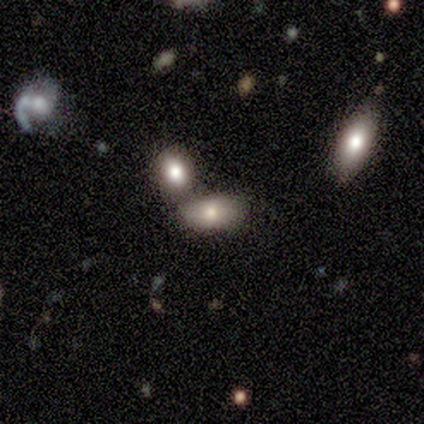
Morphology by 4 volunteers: smooth 100%, featured or disk 0%, star or artifact 0%. Down the decision tree: how rounded — in between (50%, tied with cigar-shaped); merging — none (100%).